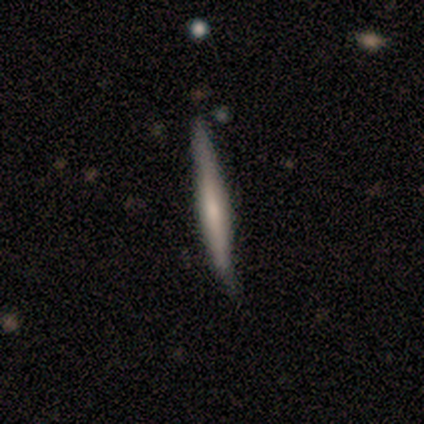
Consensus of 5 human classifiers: Volunteers were most divided on "edge-on bulge" (2-way tie): none: 50%, rounded: 50%, boxy: 0%. More confident: edge-on disk — yes (100%); smooth or featured — featured or disk (80%); merging — none (60%).